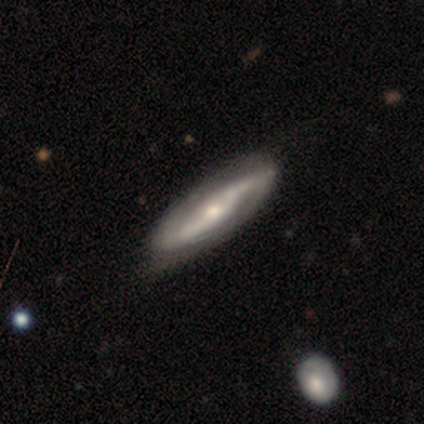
Volunteers were most divided on "bulge size": moderate: 52%, small: 41%, large: 7%, dominant: 0%, none: 0%. Remaining: spiral arms — yes (93%); edge-on disk — no (88%); spiral arm count — 2 (85%); smooth or featured — featured or disk (85%); merging — none (75%); bar — no (52%); spiral winding — loose (48%).